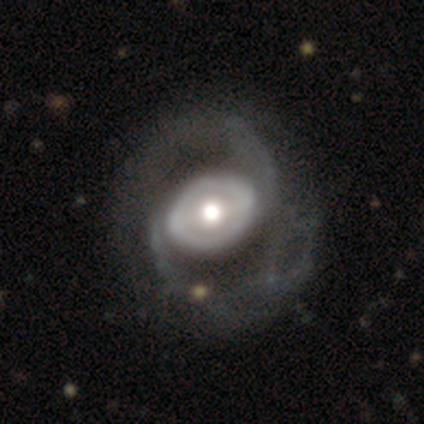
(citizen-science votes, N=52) Smooth or featured? featured or disk (87%)
Edge-on disk? no (100%)
Bar? no (42%)
Spiral arms? yes (82%)
Spiral winding? loose (43%)
Spiral arm count? 2 (95%)
Bulge size? moderate (53%)
Merging? none (50%)